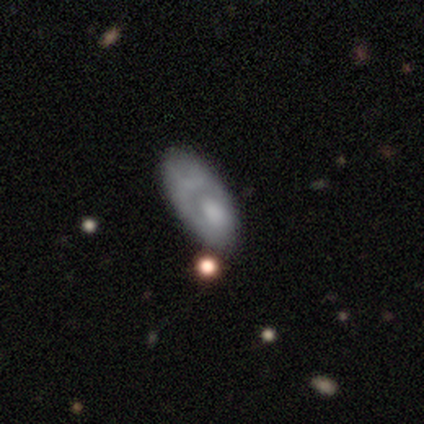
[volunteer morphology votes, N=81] Q: Smooth or featured?
A: smooth (49%); runner-up: featured or disk (43%)
Q: How rounded?
A: in between (88%); runner-up: cigar-shaped (12%)
Q: Merging?
A: none (21%); tied with: minor disturbance (21%)